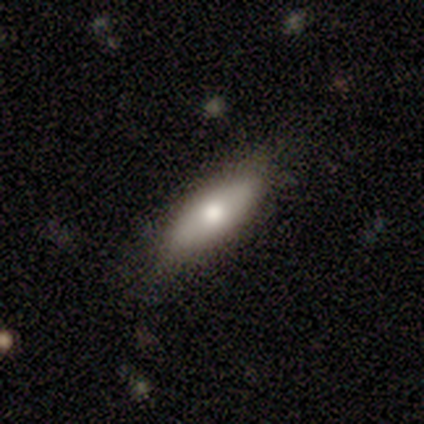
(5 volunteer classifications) Morphology: type=featured or disk (60%); edge-on=yes (67%); edge-on bulge=rounded (100%); merging=none (100%).